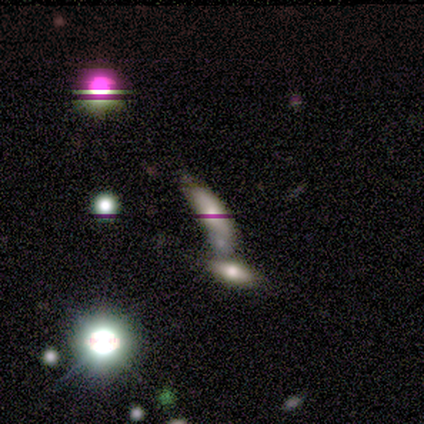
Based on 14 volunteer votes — Smooth or featured?
  - smooth: 36% * (tied)
  - featured or disk: 36% * (tied)
  - star or artifact: 29%
How rounded?
  - cigar-shaped: 80% *
  - in between: 20%
  - round: 0%
Merging?
  - merger: 50% *
  - none: 30%
  - minor disturbance: 20%
  - major disturbance: 0%